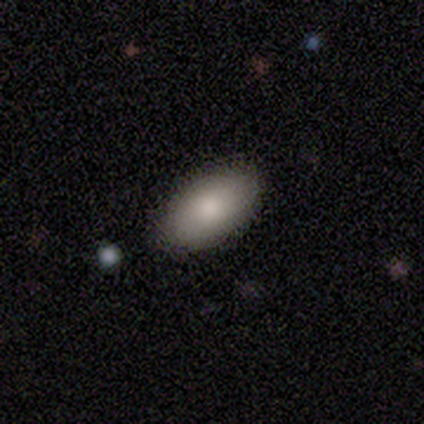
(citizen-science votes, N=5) This appears to be a smooth galaxy with no disk features (100%) that is in between round and cigar-shaped (100%). Merging: none (60%).